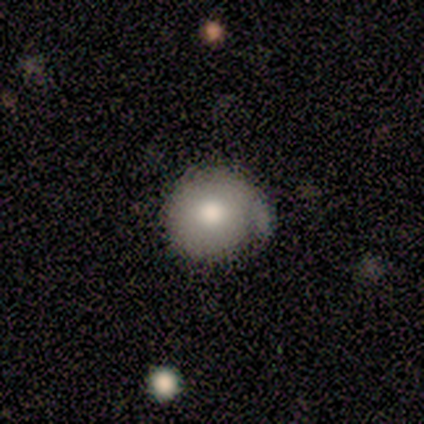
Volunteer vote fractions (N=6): This appears to be a smooth galaxy with no disk features (100%) that is round (100%). Merging: minor disturbance (50%).